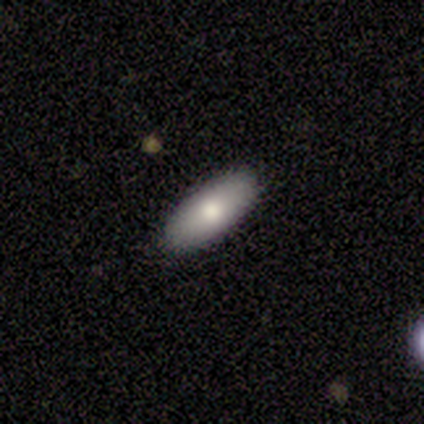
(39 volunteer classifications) This appears to be a smooth galaxy with no disk features (74%) that is in between round and cigar-shaped (86%). Merging: none (94%).